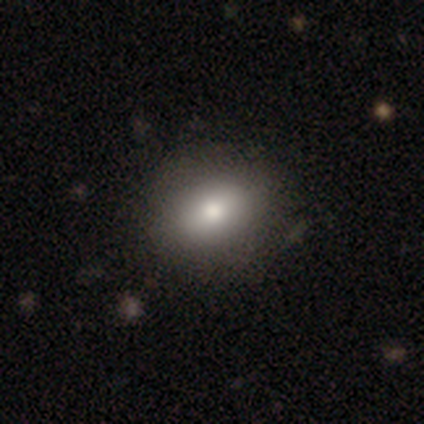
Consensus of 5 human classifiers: Smooth or featured? smooth (100%)
How rounded? in between (60%)
Merging? none (100%)